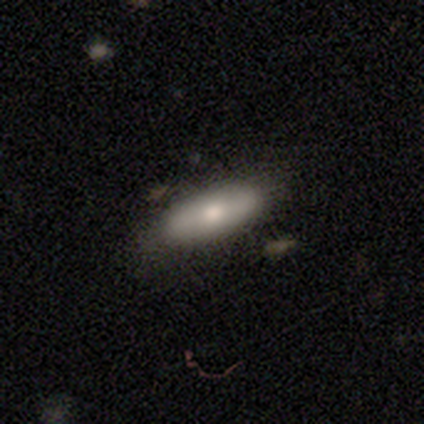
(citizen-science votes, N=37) Volunteers were most divided on "merging": none: 71%, minor disturbance: 15%, merger: 6%, major disturbance: 0%. More confident: how rounded — in between (79%); smooth or featured — smooth (78%).